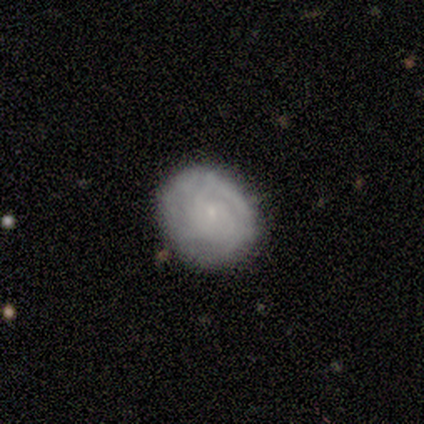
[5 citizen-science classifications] Q: Smooth or featured?
A: smooth (60%); runner-up: featured or disk (40%)
Q: How rounded?
A: round (100%)
Q: Merging?
A: none (60%); runner-up: minor disturbance (40%)